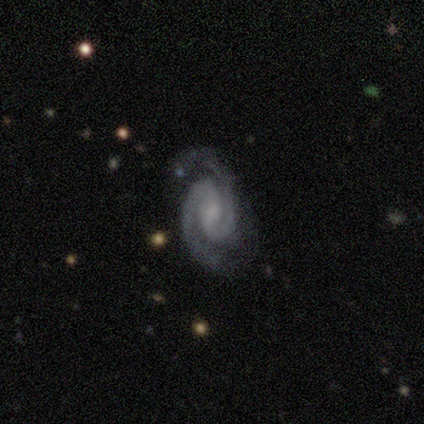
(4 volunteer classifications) Smooth or featured?
  - featured or disk: 100% *
  - smooth: 0%
  - star or artifact: 0%
Edge-on disk?
  - no: 100% *
  - yes: 0%
Bar?
  - weak: 100% *
  - strong: 0%
  - no: 0%
Spiral arms?
  - yes: 100% *
  - no: 0%
Spiral winding?
  - tight: 50% * (tied)
  - medium: 50% * (tied)
  - loose: 0%
Spiral arm count?
  - 2: 100% *
  - 1: 0%
  - 3: 0%
  - 4: 0%
  - more than 4: 0%
  - can't tell: 0%
Bulge size?
  - moderate: 50% *
  - small: 25%
  - none: 25%
  - dominant: 0%
  - large: 0%
Merging?
  - none: 50% * (tied)
  - minor disturbance: 50% * (tied)
  - major disturbance: 0%
  - merger: 0%